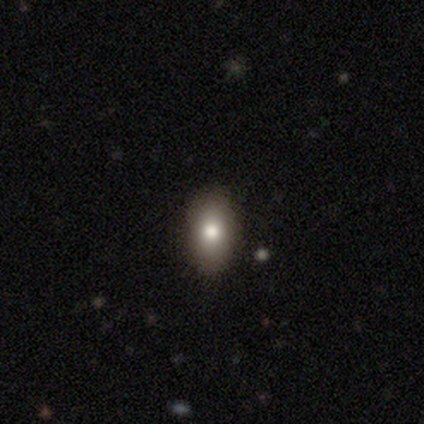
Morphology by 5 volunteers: Q: Smooth or featured?
A: smooth (100%)
Q: How rounded?
A: in between (80%); runner-up: cigar-shaped (20%)
Q: Merging?
A: none (80%); runner-up: minor disturbance (20%)